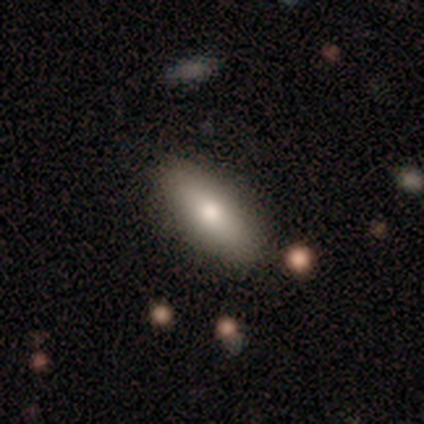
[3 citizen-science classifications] smooth_or_featured: smooth (p=0.67) [alt: featured or disk p=0.33]
how_rounded: round (p=0.50) [tied with: in between p=0.50]
merging: none (p=0.67) [alt: minor disturbance p=0.33]